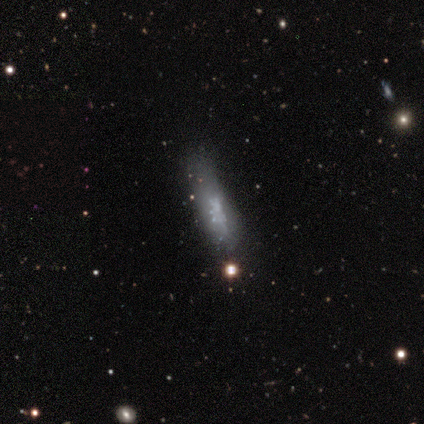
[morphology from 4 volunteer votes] type=smooth (75%); roundness=cigar-shaped (67%); merging=minor disturbance (67%).